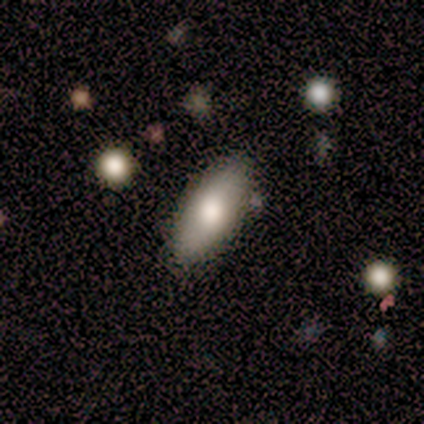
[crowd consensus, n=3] Overall: smooth (100%). How rounded: in between (100%). Merging: none (100%).